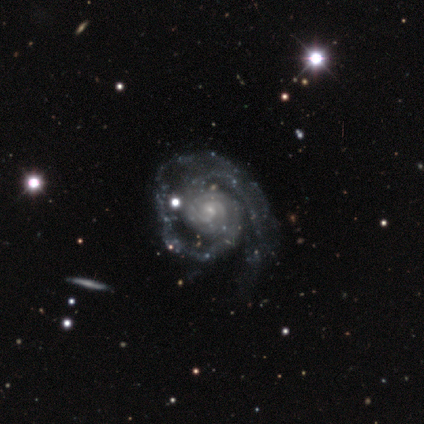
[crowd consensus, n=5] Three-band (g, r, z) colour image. It shows a featured or disk galaxy (100%) with no bar (60%), 2 (60%) tight (60%) spiral arms (100%) and a small central bulge (60%). Merging: none (60%).